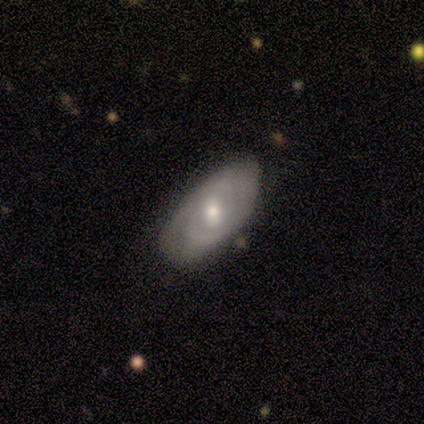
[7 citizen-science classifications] Smooth or featured? featured or disk (86%)
Edge-on disk? no (100%)
Bar? weak (83%)
Spiral arms? yes (100%)
Spiral winding? tight (67%)
Spiral arm count? 2 (50%, tied with can't tell)
Bulge size? moderate (67%)
Merging? none (67%)